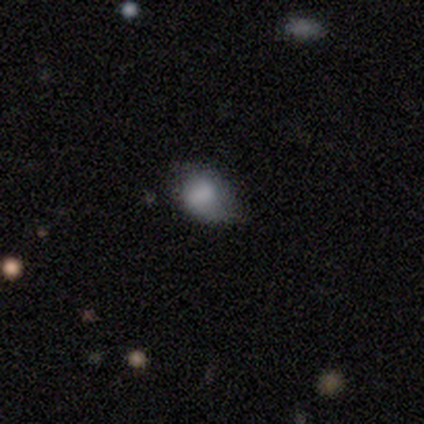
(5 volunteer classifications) Volunteers were most divided on "merging" (2-way tie): none: 50%, minor disturbance: 50%, major disturbance: 0%, merger: 0%. More confident: smooth or featured — smooth (80%); how rounded — in between (75%).